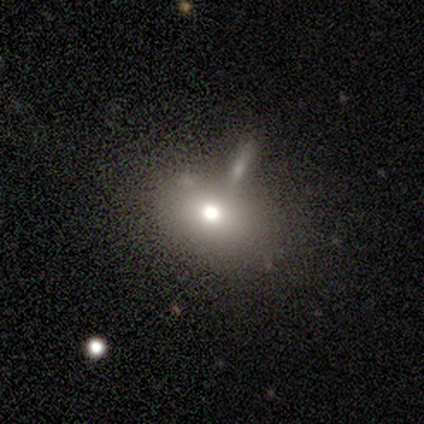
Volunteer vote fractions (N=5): Volunteers were most divided on "smooth or featured": smooth: 60%, star or artifact: 40%, featured or disk: 0%. More confident: how rounded — in between (100%); merging — none (67%).